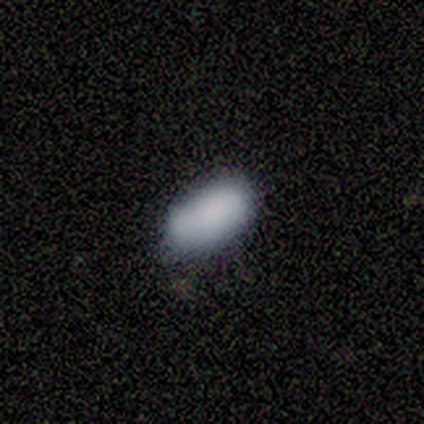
A smooth galaxy with no disk features (100%) that is in between round and cigar-shaped (67%).

Vote fractions:
- Smooth or featured? smooth: 100% / featured or disk: 0% / star or artifact: 0%
- How rounded? in between: 67% / round: 33% / cigar-shaped: 0%
- Merging? none: 100% / minor disturbance: 0% / major disturbance: 0% / merger: 0%